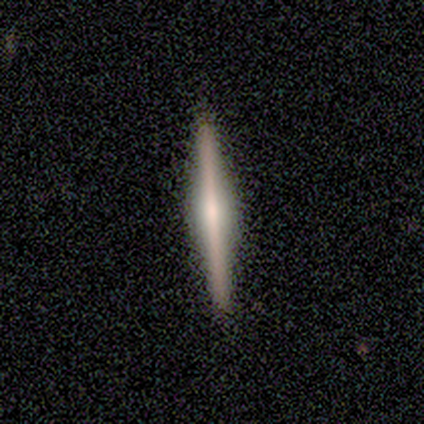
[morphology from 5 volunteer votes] This appears to be a featured or disk galaxy (80%) viewed edge-on (100%) with a rounded central bulge (50%). Merging: none (100%).